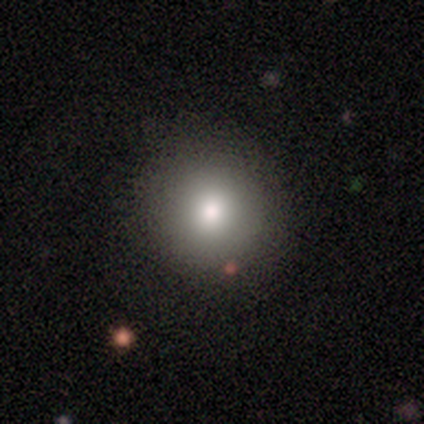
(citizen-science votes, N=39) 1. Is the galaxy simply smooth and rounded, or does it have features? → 92% smooth, 5% star or artifact, 3% featured or disk.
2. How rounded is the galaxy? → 94% round, 6% in between, 0% cigar-shaped.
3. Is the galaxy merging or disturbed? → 62% none, 11% minor disturbance, 5% major disturbance, 3% merger.